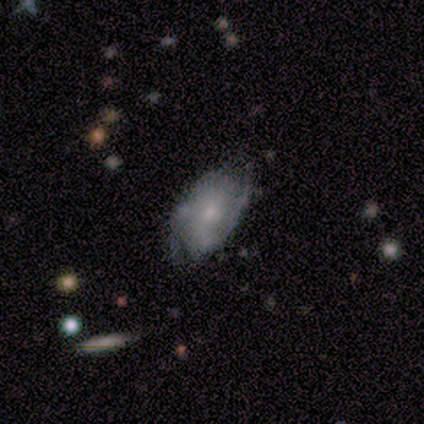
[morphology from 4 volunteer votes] A featured or disk galaxy (50%) with a weak bar (50%, tied with no), 2 (50%, tied with 3) medium (50%, tied with loose) spiral arms (100%) and a moderate central bulge (50%, tied with small).

Vote fractions:
- Smooth or featured? featured or disk: 50% / smooth: 25% / star or artifact: 25%
- Edge-on disk? no: 100% / yes: 0%
- Bar? weak: 50% (tied) / no: 50% (tied) / strong: 0%
- Spiral arms? yes: 100% / no: 0%
- Spiral winding? medium: 50% (tied) / loose: 50% (tied) / tight: 0%
- Spiral arm count? 2: 50% (tied) / 3: 50% (tied) / 1: 0% / 4: 0% / more than 4: 0% / can't tell: 0%
- Bulge size? moderate: 50% (tied) / small: 50% (tied) / dominant: 0% / large: 0% / none: 0%
- Merging? none: 100% / minor disturbance: 0% / major disturbance: 0% / merger: 0%